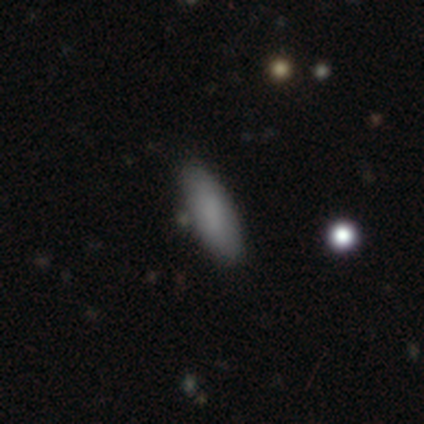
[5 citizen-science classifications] smooth_or_featured: smooth (p=0.80) [alt: star or artifact p=0.20]
how_rounded: in between (p=0.50) [tied with: cigar-shaped p=0.50]
merging: none (p=1.00)